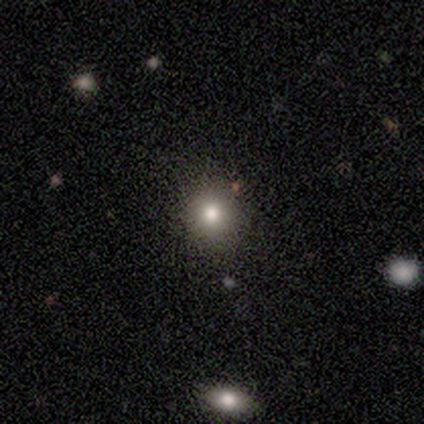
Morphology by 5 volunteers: Smooth or featured?
  - smooth: 80% *
  - star or artifact: 20%
  - featured or disk: 0%
How rounded?
  - round: 100% *
  - in between: 0%
  - cigar-shaped: 0%
Merging?
  - none: 100% *
  - minor disturbance: 0%
  - major disturbance: 0%
  - merger: 0%